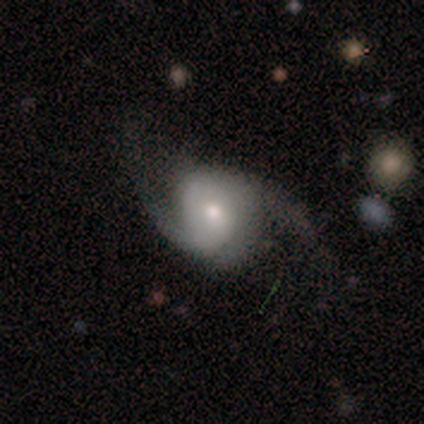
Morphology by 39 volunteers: Smooth or featured: featured or disk — 79% (smooth — 21%)
Edge-on disk: no — 100%
Bar: no — 58% (weak — 35%)
Spiral arms: yes — 100%
Spiral winding: medium — 48% (loose — 42%)
Spiral arm count: 2 — 90% (can't tell — 6%)
Bulge size: small — 52% (moderate — 48%)
Merging: none — 62% (minor disturbance — 21%)